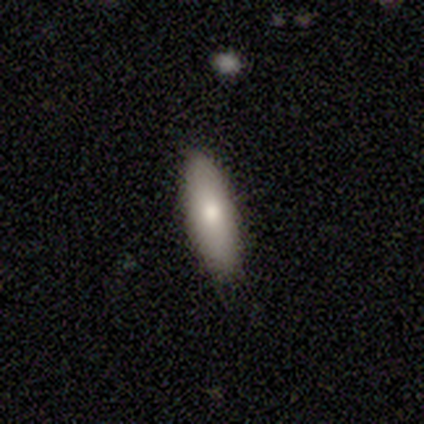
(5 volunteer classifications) A smooth galaxy with no disk features (80%) that is in between round and cigar-shaped (75%). Merging: none (60%).